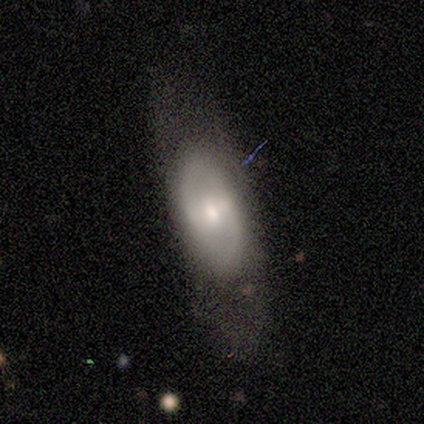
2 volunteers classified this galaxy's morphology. This is clearly a featured or disk galaxy (100%). It is clearly not viewed edge-on (100%). Bar: possibly weak (50%, tied with no). Spiral arm pattern: clearly yes (100%). Spiral arm count: clearly 2 (100%). Spiral winding: possibly medium (50%, tied with loose). Central bulge: clearly moderate (100%). Merging: clearly none (100%).